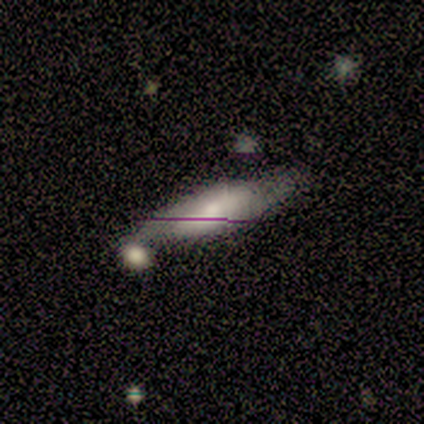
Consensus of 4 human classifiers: This is possibly a smooth galaxy (50%, tied with featured or disk). How rounded: clearly cigar-shaped (100%). Merging: possibly none (50%, tied with minor disturbance).